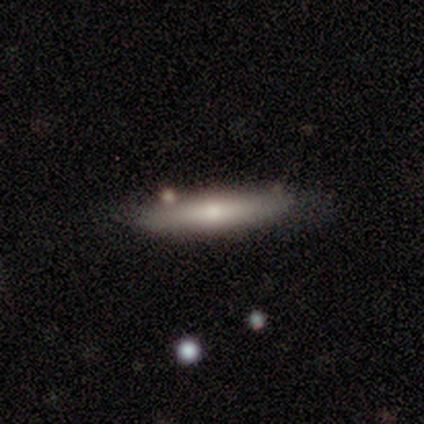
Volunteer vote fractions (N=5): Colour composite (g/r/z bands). It shows a smooth galaxy with no disk features (80%) that is cigar-shaped (75%). Merging: none (100%).